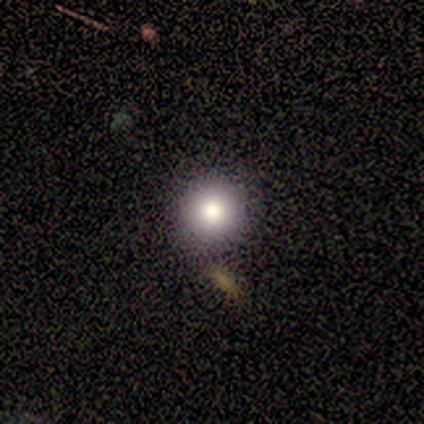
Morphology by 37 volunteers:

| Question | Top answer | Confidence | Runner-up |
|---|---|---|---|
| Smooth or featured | smooth | 76% | featured or disk (14%) |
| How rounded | round | 96% | in between (4%) |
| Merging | none | 85% | minor disturbance (6%) |